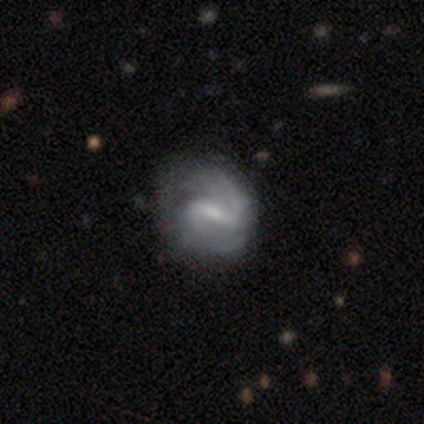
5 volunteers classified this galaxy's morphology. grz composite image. It shows a featured or disk galaxy (100%) with a weak bar (60%), 2 (100%) medium (80%) spiral arms (100%) and a small central bulge (40%). Merging: none (60%).